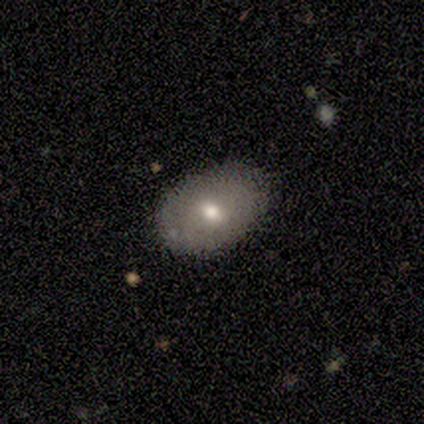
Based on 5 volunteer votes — smooth 80%, featured or disk 20%, star or artifact 0%. Down the decision tree: how rounded — in between (100%); merging — none (60%).